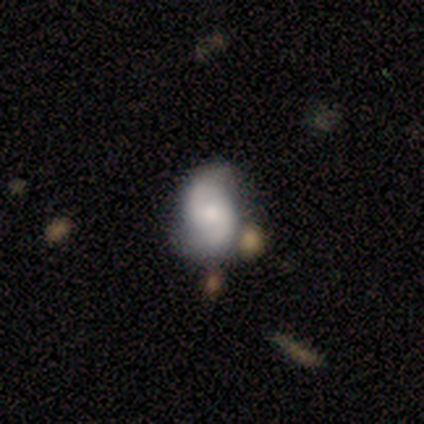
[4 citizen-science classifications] Smooth or featured?
  - smooth: 50% * (tied)
  - featured or disk: 50% * (tied)
  - star or artifact: 0%
How rounded?
  - in between: 100% *
  - round: 0%
  - cigar-shaped: 0%
Merging?
  - none: 50% * (tied)
  - minor disturbance: 50% * (tied)
  - major disturbance: 0%
  - merger: 0%